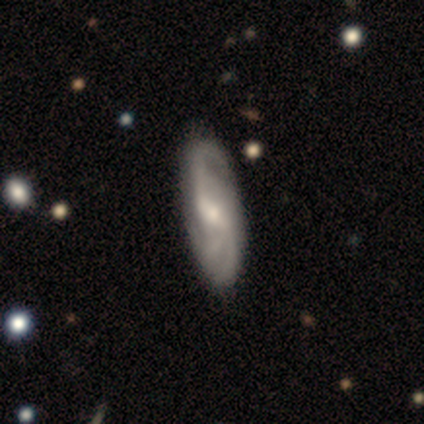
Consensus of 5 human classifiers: This is clearly a featured or disk galaxy (80%). It is likely not viewed edge-on (75%). Bar: clearly weak (100%). Spiral arm pattern: likely yes (67%). Spiral arm count: possibly 2 (50%, tied with can't tell). Spiral winding: possibly tight (50%, tied with medium). Central bulge: likely small (67%). Merging: likely none (60%).